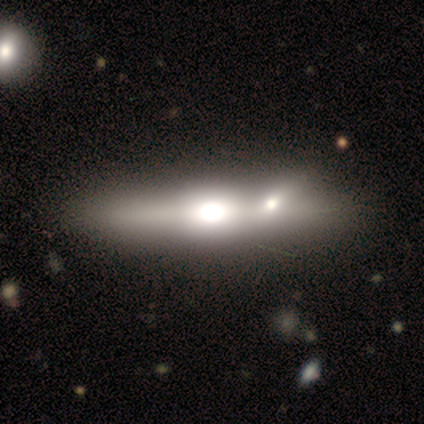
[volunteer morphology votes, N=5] Overall: featured or disk (100%). Edge-on disk: yes (100%). Edge-on bulge: rounded (100%). Merging: none (40%, tied with minor disturbance).